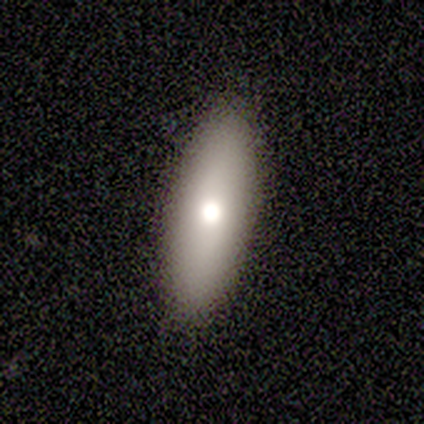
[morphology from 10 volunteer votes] Smooth or featured?
  - smooth: 70% *
  - featured or disk: 20%
  - star or artifact: 10%
How rounded?
  - cigar-shaped: 57% *
  - in between: 43%
  - round: 0%
Merging?
  - none: 100% *
  - minor disturbance: 0%
  - major disturbance: 0%
  - merger: 0%